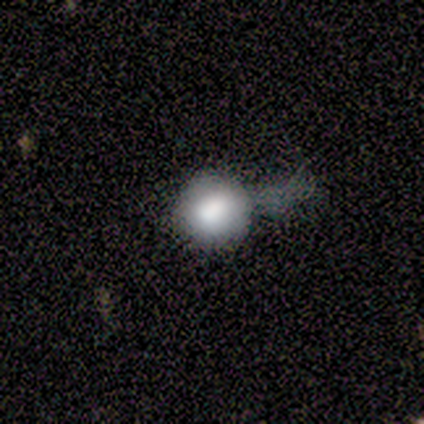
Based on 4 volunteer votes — smooth_or_featured: smooth (p=1.00)
how_rounded: round (p=0.75) [alt: in between p=0.25]
merging: none (p=0.75) [alt: major disturbance p=0.25]